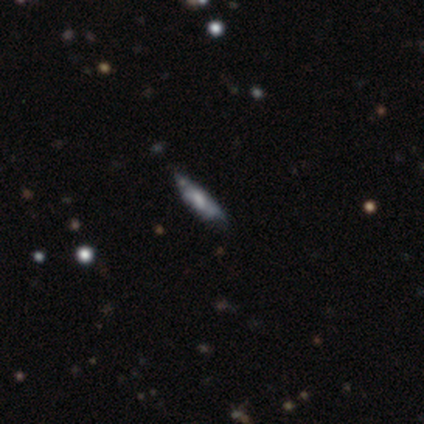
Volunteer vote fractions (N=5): This is likely a smooth galaxy (60%). How rounded: clearly cigar-shaped (100%). Merging: possibly none (50%, tied with minor disturbance).